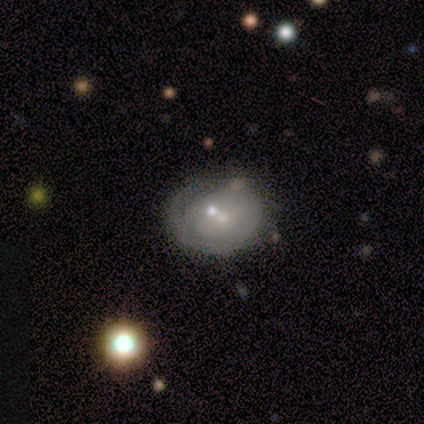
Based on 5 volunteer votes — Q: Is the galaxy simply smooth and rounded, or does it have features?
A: featured or disk — 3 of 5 (60%).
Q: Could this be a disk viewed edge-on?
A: no — 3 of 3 (100%).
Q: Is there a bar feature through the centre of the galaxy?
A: no — 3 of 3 (100%).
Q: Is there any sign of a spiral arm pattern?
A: yes — 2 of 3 (67%).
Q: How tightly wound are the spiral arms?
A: tight — 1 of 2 (50%, tied with loose).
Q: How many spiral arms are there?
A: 1 — 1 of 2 (50%, tied with 2).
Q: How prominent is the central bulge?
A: small — 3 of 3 (100%).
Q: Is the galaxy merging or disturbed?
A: none — 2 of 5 (40%, tied with major disturbance).